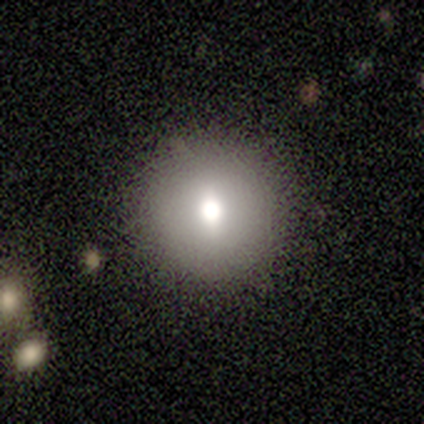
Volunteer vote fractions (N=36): This is possibly a smooth galaxy (56%). How rounded: clearly round (100%). Merging: clearly none (91%).